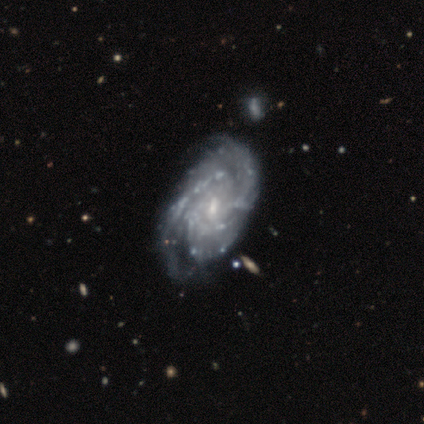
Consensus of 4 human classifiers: A featured or disk galaxy (75%) with a weak bar (67%), 2 (67%) medium (67%) spiral arms (100%) and a small central bulge (100%).

Vote fractions:
- Smooth or featured? featured or disk: 75% / star or artifact: 25% / smooth: 0%
- Edge-on disk? no: 100% / yes: 0%
- Bar? weak: 67% / no: 33% / strong: 0%
- Spiral arms? yes: 100% / no: 0%
- Spiral winding? medium: 67% / tight: 33% / loose: 0%
- Spiral arm count? 2: 67% / 3: 33% / 1: 0% / 4: 0% / more than 4: 0% / can't tell: 0%
- Bulge size? small: 100% / dominant: 0% / large: 0% / moderate: 0% / none: 0%
- Merging? none: 67% / minor disturbance: 33% / major disturbance: 0% / merger: 0%